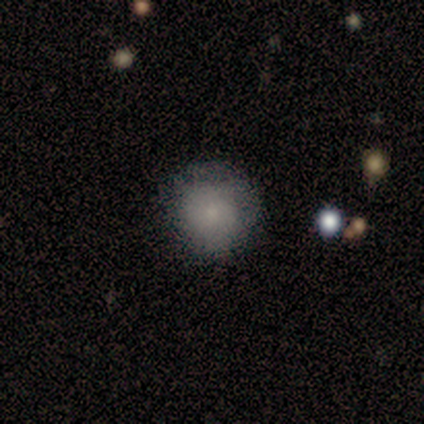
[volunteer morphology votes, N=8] smooth_or_featured: smooth (p=0.62) [alt: featured or disk p=0.25]
how_rounded: round (p=1.00)
merging: none (p=0.86) [alt: minor disturbance p=0.14]